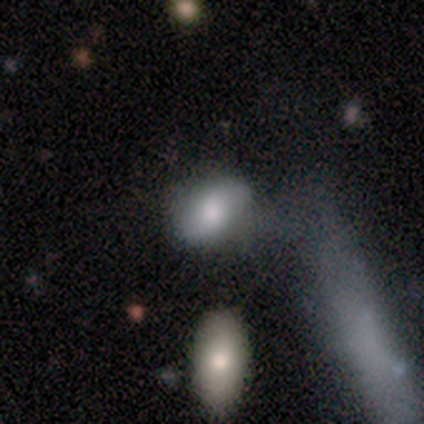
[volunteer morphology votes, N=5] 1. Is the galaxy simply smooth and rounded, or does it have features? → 40% featured or disk (tied), 40% star or artifact (tied), 20% smooth.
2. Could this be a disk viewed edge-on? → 100% no, 0% yes.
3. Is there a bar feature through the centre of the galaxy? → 50% weak (tied), 50% no (tied), 0% strong.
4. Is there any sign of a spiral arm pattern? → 50% yes (tied), 50% no (tied).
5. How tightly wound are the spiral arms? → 100% medium, 0% tight, 0% loose.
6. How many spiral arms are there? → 100% 2, 0% 1, 0% 3, 0% 4, 0% more than 4, 0% can't tell.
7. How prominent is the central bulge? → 50% large (tied), 50% small (tied), 0% dominant, 0% moderate, 0% none.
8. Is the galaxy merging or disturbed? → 33% minor disturbance (tied), 33% major disturbance (tied), 33% merger (tied), 0% none.